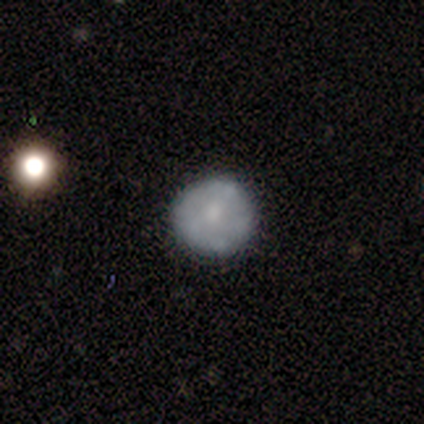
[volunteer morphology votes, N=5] Smooth or featured: featured or disk — 40% (tied with star or artifact — 40%)
Edge-on disk: no — 100%
Bar: no — 100%
Spiral arms: no — 100%
Bulge size: moderate — 50% (tied with small — 50%)
Merging: none — 100%